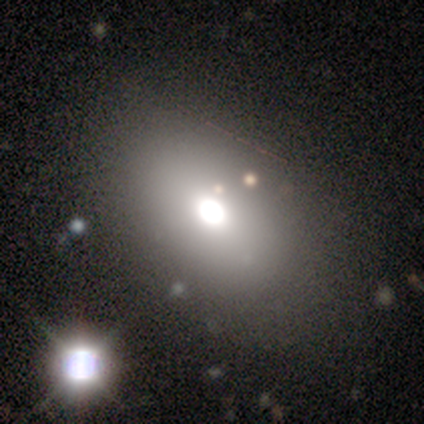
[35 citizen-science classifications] smooth-or-featured: smooth: 66% | star or artifact: 26% | featured or disk: 9%
  how-rounded: in between: 70% | round: 30% | cigar-shaped: 0%
  merging: none: 85% | major disturbance: 8% | minor disturbance: 4% | merger: 4%